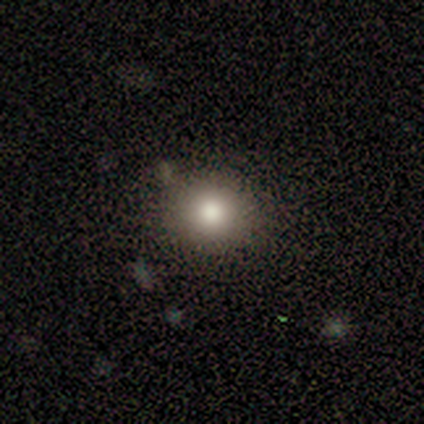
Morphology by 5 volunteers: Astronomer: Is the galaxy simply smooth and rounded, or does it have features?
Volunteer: smooth — 80%.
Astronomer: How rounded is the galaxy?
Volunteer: round — 100%.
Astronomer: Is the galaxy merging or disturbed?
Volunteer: none — 100%.